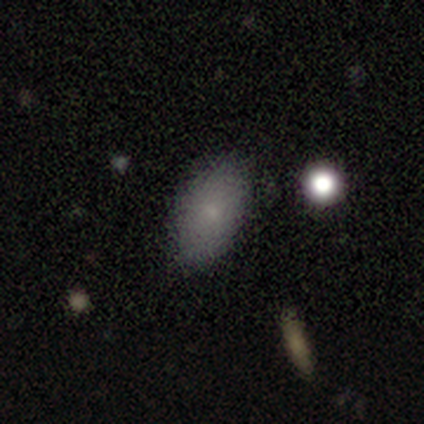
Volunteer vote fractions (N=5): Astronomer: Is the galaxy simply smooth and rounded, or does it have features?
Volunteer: smooth — 100%.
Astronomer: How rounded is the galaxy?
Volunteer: in between — 100%.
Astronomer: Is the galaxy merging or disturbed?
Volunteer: none — 80%.